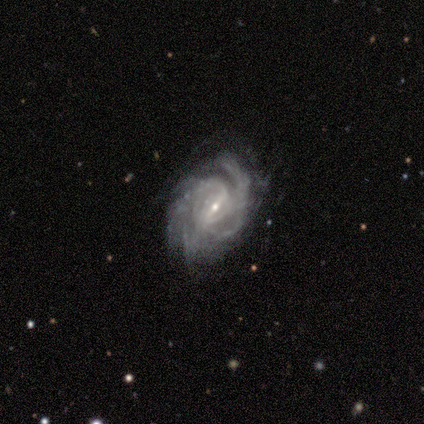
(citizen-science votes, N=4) Q: Smooth or featured?
A: featured or disk (100%)
Q: Edge-on disk?
A: no (100%)
Q: Bar?
A: strong (100%)
Q: Spiral arms?
A: yes (100%)
Q: Spiral winding?
A: tight (50%); tied with: medium (50%)
Q: Spiral arm count?
A: 2 (50%); runner-up: 4 (25%)
Q: Bulge size?
A: small (75%); runner-up: moderate (25%)
Q: Merging?
A: none (50%); runner-up: minor disturbance (25%)